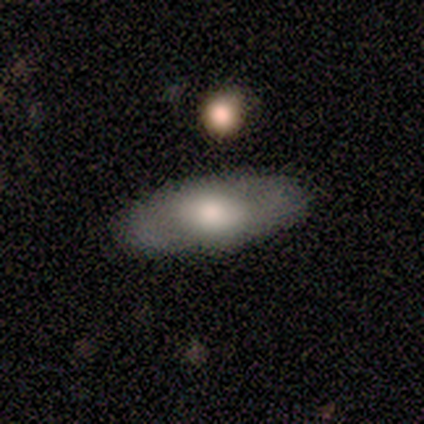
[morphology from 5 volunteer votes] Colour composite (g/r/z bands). It shows a smooth galaxy with no disk features (100%) that is in between round and cigar-shaped (80%). Merging: none (100%).